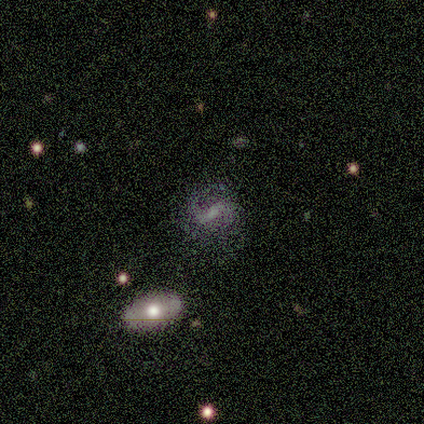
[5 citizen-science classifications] Q: Smooth or featured?
A: featured or disk (80%); runner-up: smooth (20%)
Q: Edge-on disk?
A: no (100%)
Q: Bar?
A: weak (75%); runner-up: strong (25%)
Q: Spiral arms?
A: yes (100%)
Q: Spiral winding?
A: medium (75%); runner-up: tight (25%)
Q: Spiral arm count?
A: 1 (50%); tied with: 2 (50%)
Q: Bulge size?
A: small (75%); runner-up: none (25%)
Q: Merging?
A: none (60%); runner-up: minor disturbance (40%)